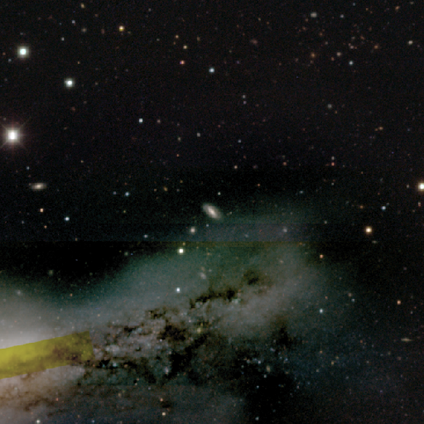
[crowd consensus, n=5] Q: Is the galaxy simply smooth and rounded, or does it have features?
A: smooth — 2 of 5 (40%, tied with star or artifact).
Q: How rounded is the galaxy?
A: in between — 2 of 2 (100%).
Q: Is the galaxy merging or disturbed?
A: none — 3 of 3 (100%).